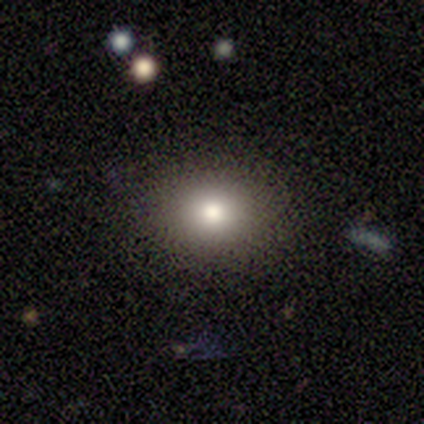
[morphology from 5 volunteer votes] Smooth or featured?
  - smooth: 80% *
  - star or artifact: 20%
  - featured or disk: 0%
How rounded?
  - in between: 75% *
  - round: 25%
  - cigar-shaped: 0%
Merging?
  - none: 100% *
  - minor disturbance: 0%
  - major disturbance: 0%
  - merger: 0%